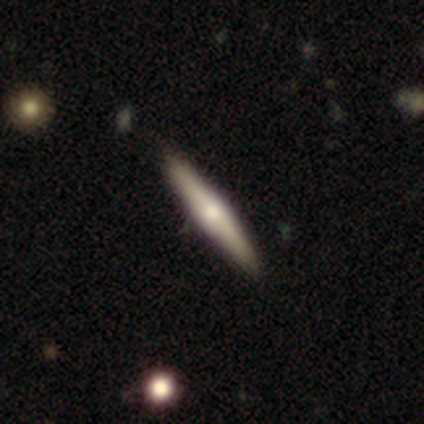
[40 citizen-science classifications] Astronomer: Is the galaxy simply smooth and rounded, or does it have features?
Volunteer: featured or disk — 55% (runner-up: smooth, 42%).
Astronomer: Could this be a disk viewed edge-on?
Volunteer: yes — 95%.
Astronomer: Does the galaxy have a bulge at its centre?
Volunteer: rounded — 86%.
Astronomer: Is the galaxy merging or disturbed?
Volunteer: none — 69%.